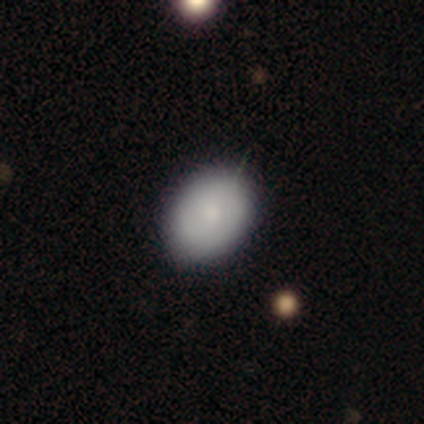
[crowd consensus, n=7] Smooth or featured?
  - smooth: 71% *
  - featured or disk: 29%
  - star or artifact: 0%
How rounded?
  - in between: 60% *
  - round: 40%
  - cigar-shaped: 0%
Merging?
  - none: 86% *
  - minor disturbance: 14%
  - major disturbance: 0%
  - merger: 0%